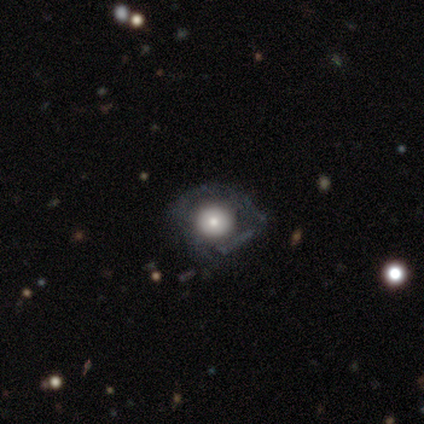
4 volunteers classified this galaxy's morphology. This is clearly a featured or disk galaxy (100%). It is possibly viewed edge-on (50%, tied with no). Edge-on bulge: clearly rounded (100%). Merging: possibly minor disturbance (50%).